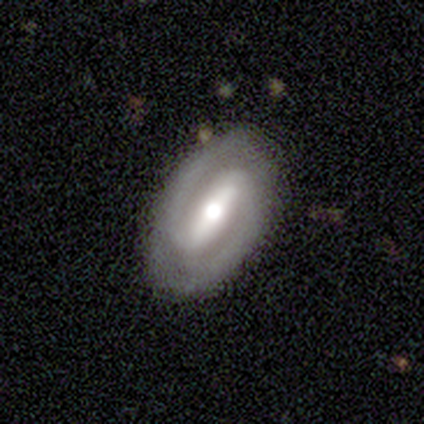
Morphology: type=featured or disk (82%); edge-on=no (94%); bar=strong (73%); spiral arms=yes (97%); winding=tight (48%, tied with medium); arm count=2 (93%); bulge=moderate (53%); merging=none (92%).